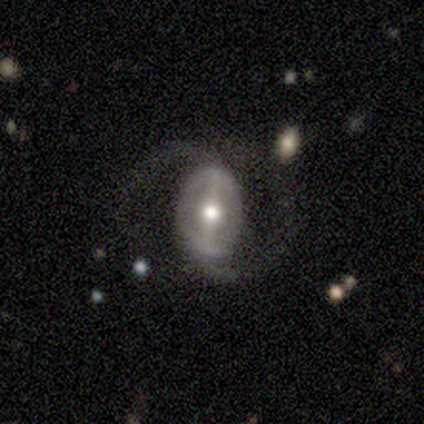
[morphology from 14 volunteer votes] smooth-or-featured: featured or disk: 79% | smooth: 21% | star or artifact: 0%
  disk-edge-on: no: 100% | yes: 0%
    bar: strong: 64% | weak: 36% | no: 0%
    has-spiral-arms: yes: 91% | no: 9%
      spiral-winding: tight: 40% (tied) | loose: 40% (tied) | medium: 20%
      spiral-arm-count: 2: 100% | 1: 0% | 3: 0% | 4: 0% | more than 4: 0% | can't tell: 0%
    bulge-size: moderate: 64% | large: 27% | small: 9% | dominant: 0% | none: 0%
  merging: none: 79% | major disturbance: 21% | minor disturbance: 0% | merger: 0%